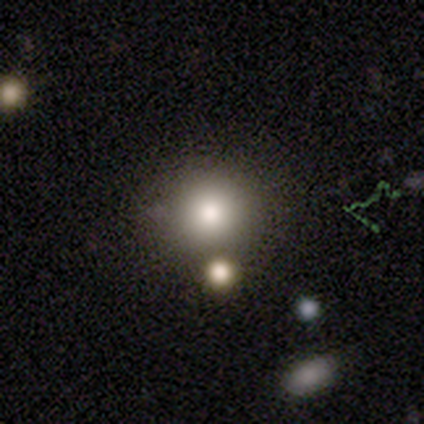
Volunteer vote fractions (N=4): Morphology: type=star or artifact (50%).